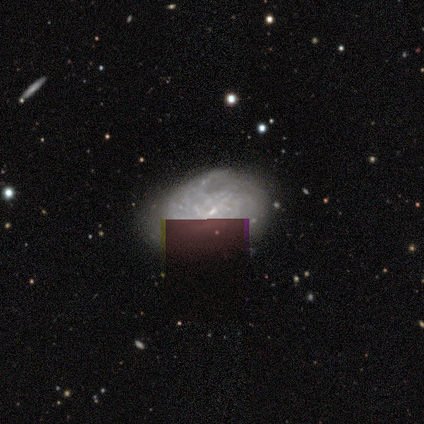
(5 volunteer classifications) featured or disk 60%, smooth 40%, star or artifact 0%. Down the decision tree: edge-on disk — no (100%); bar — weak (67%); spiral arms — yes (100%); spiral arm count — 2 (67%); spiral winding — loose (67%); bulge size — small (100%); merging — minor disturbance (60%).